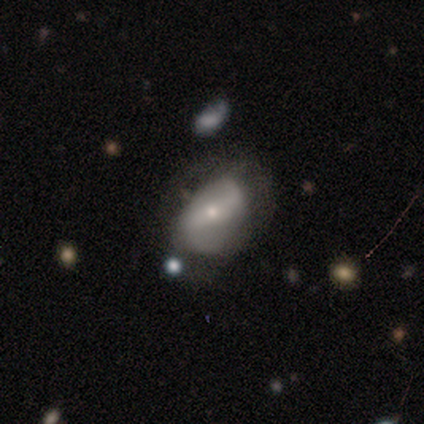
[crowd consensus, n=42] Smooth or featured? 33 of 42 (79%) said featured or disk. Edge-on disk? 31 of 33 (94%) said no. Bar? 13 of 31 (42%) said weak. Spiral arms? 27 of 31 (87%) said yes. Spiral winding? 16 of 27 (59%) said loose. Spiral arm count? 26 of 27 (96%) said 2. Bulge size? 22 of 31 (71%) said small. Merging? 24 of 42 (57%) said none.